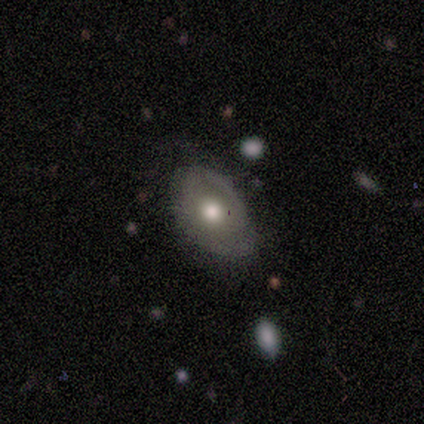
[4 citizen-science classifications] A featured or disk galaxy (75%) with no bar (100%), no spiral arms (67%) and a moderate central bulge (67%). Merging: none (100%).